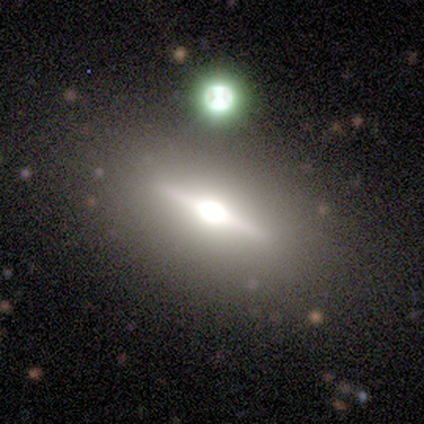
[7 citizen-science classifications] Morphology: type=featured or disk (86%); edge-on=yes (100%); edge-on bulge=rounded (83%); merging=none (71%).